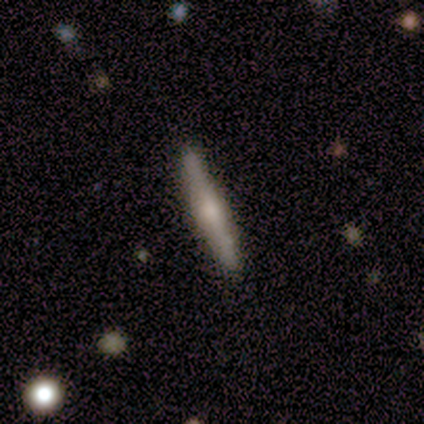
This is likely a featured or disk galaxy (64%). It is clearly viewed edge-on (100%). Edge-on bulge: likely rounded (73%). Merging: clearly none (86%).